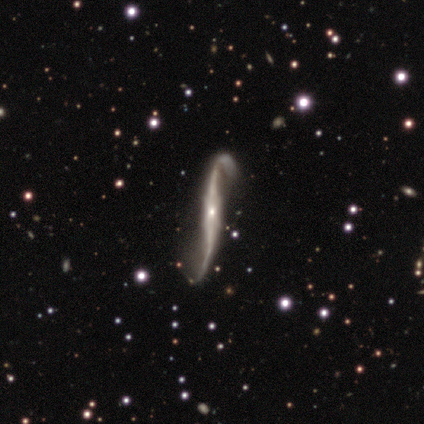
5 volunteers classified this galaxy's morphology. Overall: featured or disk (100%). Edge-on disk: no (60%; yes 40%). Bar: strong (67%; weak 33%). Spiral arms: yes (100%). Spiral arm count: 2 (100%). Spiral winding: medium (67%; loose 33%). Bulge size: small (100%). Merging: none (40%, tied with major disturbance).